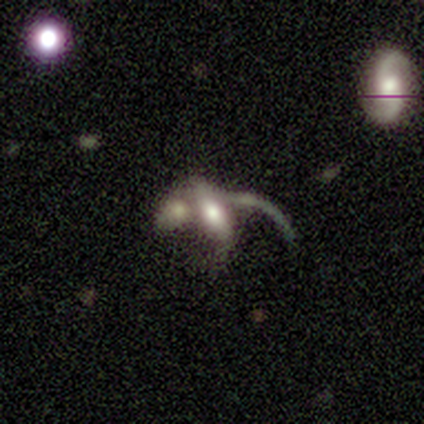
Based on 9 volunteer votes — Morphology: type=featured or disk (44%); edge-on=no (100%); bar=no (75%); spiral arms=no (75%); bulge=moderate (50%); merging=major disturbance (57%).